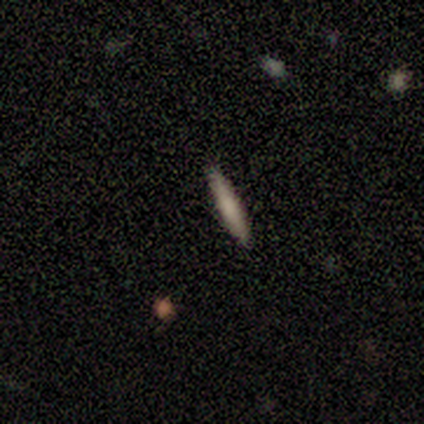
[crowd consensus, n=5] This appears to be a smooth galaxy with no disk features (60%) that is cigar-shaped (67%). Merging: none (100%).